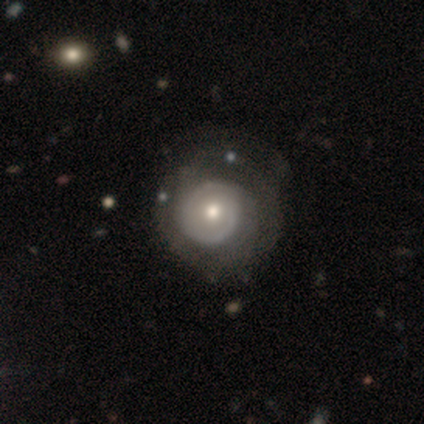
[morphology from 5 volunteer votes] Q: Smooth or featured?
A: featured or disk (80%); runner-up: smooth (20%)
Q: Edge-on disk?
A: no (100%)
Q: Bar?
A: no (100%)
Q: Spiral arms?
A: yes (75%); runner-up: no (25%)
Q: Spiral winding?
A: tight (67%); runner-up: medium (33%)
Q: Spiral arm count?
A: can't tell (67%); runner-up: 2 (33%)
Q: Bulge size?
A: moderate (75%); runner-up: small (25%)
Q: Merging?
A: none (80%); runner-up: minor disturbance (20%)